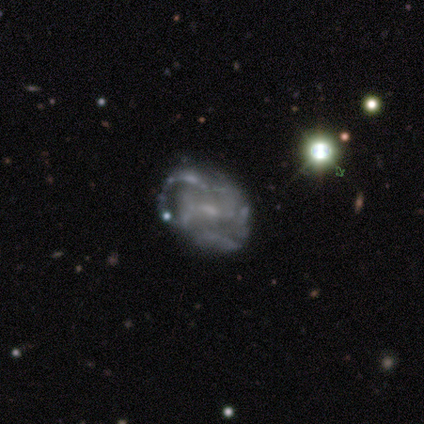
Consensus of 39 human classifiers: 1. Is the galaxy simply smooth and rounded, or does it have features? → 85% featured or disk, 10% smooth, 5% star or artifact.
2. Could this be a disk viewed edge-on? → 100% no, 0% yes.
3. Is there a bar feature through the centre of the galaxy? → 52% no, 36% weak, 12% strong.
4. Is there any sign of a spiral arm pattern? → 70% yes, 30% no.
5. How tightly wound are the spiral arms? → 39% tight, 35% medium, 26% loose.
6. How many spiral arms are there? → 39% can't tell, 26% 4, 22% 3, 9% 2, 4% 1, 0% more than 4.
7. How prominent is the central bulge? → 52% small, 24% moderate, 21% none, 3% large, 0% dominant.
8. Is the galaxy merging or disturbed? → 57% none, 30% major disturbance, 8% minor disturbance, 5% merger.